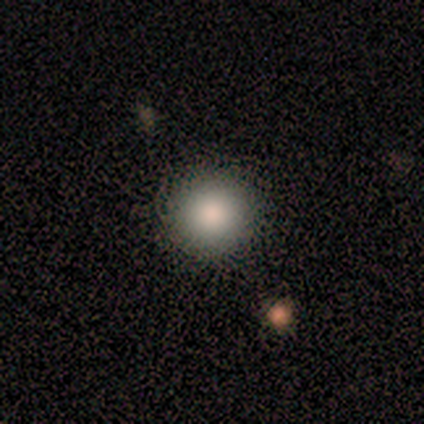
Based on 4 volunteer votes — Smooth or featured? 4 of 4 (100%) said smooth. How rounded? 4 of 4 (100%) said round. Merging? 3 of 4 (75%) said none.